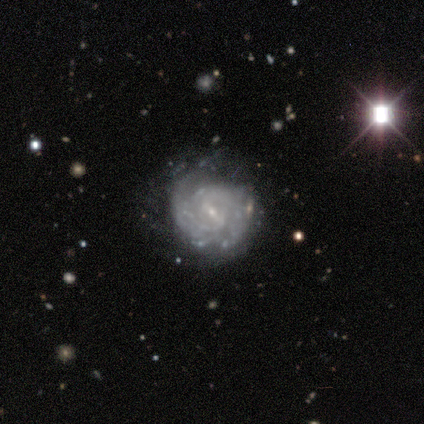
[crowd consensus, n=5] Smooth or featured? 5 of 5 (100%) said featured or disk. Edge-on disk? 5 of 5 (100%) said no. Bar? 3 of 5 (60%) said no. Spiral arms? 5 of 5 (100%) said yes. Spiral winding? 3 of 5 (60%) said tight. Spiral arm count? 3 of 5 (60%) said can't tell. Bulge size? 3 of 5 (60%) said small. Merging? 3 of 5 (60%) said none.